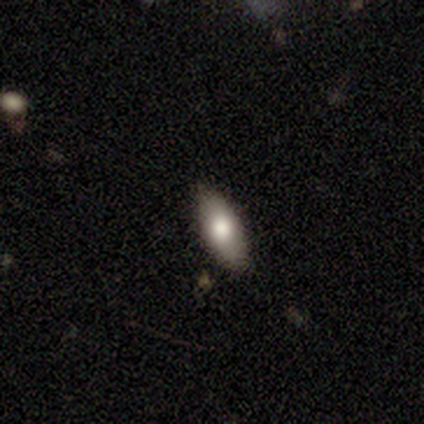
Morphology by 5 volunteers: Smooth or featured?
  - featured or disk: 80% *
  - smooth: 20%
  - star or artifact: 0%
Edge-on disk?
  - no: 75% *
  - yes: 25%
Bar?
  - no: 67% *
  - weak: 33%
  - strong: 0%
Spiral arms?
  - no: 67% *
  - yes: 33%
Bulge size?
  - large: 67% *
  - moderate: 33%
  - dominant: 0%
  - small: 0%
  - none: 0%
Merging?
  - none: 40% * (tied)
  - minor disturbance: 40% * (tied)
  - major disturbance: 20%
  - merger: 0%